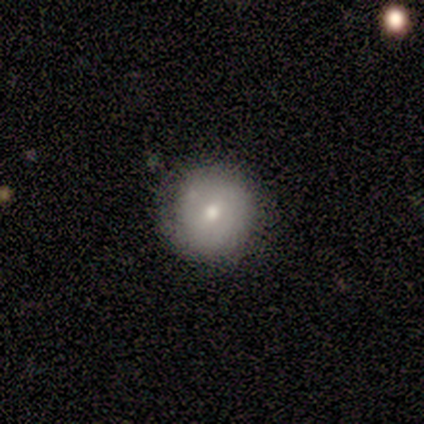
A smooth galaxy with no disk features (50%, tied with featured or disk) that is round (100%). Merging: none (50%, tied with minor disturbance).